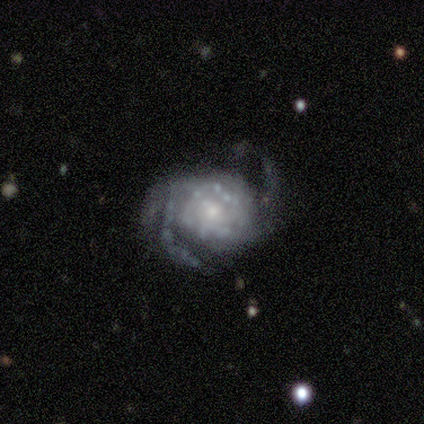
Smooth or featured?
  - featured or disk: 83% *
  - smooth: 17%
  - star or artifact: 0%
Edge-on disk?
  - no: 100% *
  - yes: 0%
Bar?
  - no: 90% *
  - weak: 10%
  - strong: 0%
Spiral arms?
  - yes: 100% *
  - no: 0%
Spiral winding?
  - tight: 40% * (tied)
  - loose: 40% * (tied)
  - medium: 20%
Spiral arm count?
  - 2: 80% *
  - 3: 10%
  - can't tell: 10%
  - 1: 0%
  - 4: 0%
  - more than 4: 0%
Bulge size?
  - small: 80% *
  - moderate: 20%
  - dominant: 0%
  - large: 0%
  - none: 0%
Merging?
  - major disturbance: 50% *
  - none: 42%
  - minor disturbance: 8%
  - merger: 0%